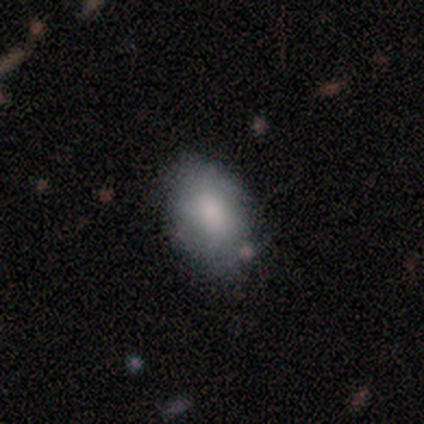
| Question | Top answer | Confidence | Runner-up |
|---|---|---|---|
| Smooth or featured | smooth | 86% | featured or disk (14%) |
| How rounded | in between | 100% | — |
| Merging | none | 86% | minor disturbance (14%) |